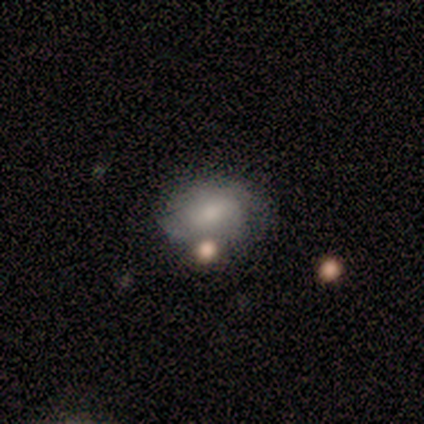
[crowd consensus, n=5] This is likely a featured or disk galaxy (60%). It is clearly not viewed edge-on (100%). Bar: likely no (67%). Spiral arm pattern: likely no (67%). Central bulge: likely small (67%). Merging: marginally none (40%, tied with minor disturbance).